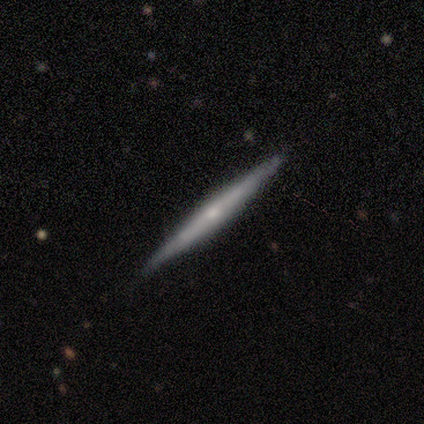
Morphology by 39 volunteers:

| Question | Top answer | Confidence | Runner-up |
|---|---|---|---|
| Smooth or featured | featured or disk | 64% | smooth (31%) |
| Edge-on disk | yes | 96% | no (4%) |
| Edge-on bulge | rounded | 71% | none (21%) |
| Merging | none | 92% | minor disturbance (8%) |